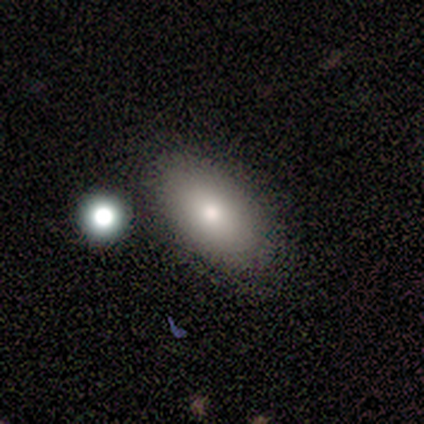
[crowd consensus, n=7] Overall: smooth (86%). How rounded: in between (100%). Merging: none (83%).